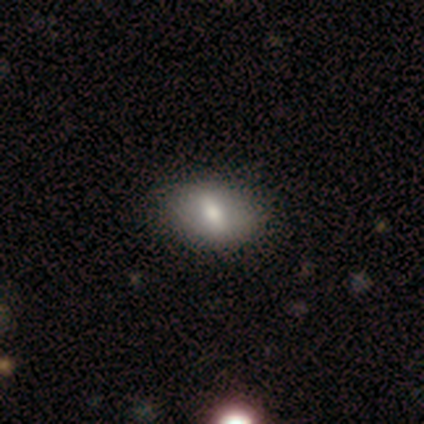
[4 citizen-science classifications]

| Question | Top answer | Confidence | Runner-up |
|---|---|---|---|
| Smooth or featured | featured or disk | 75% | smooth (25%) |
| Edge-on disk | no | 100% | — |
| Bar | strong | 67% | no (33%) |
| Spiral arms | no | 100% | — |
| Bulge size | moderate | 67% | large (33%) |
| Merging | none | 100% | — |